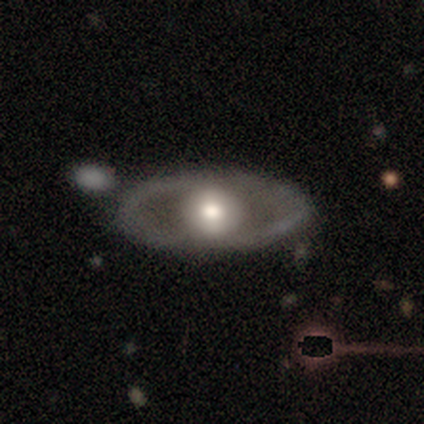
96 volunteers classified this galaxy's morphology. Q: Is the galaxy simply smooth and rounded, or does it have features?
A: featured or disk — 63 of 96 (66%).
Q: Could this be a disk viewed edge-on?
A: no — 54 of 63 (86%).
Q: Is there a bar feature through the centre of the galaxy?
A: no — 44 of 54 (81%).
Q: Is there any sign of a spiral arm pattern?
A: no — 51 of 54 (94%).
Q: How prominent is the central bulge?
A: moderate — 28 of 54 (52%).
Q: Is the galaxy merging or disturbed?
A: none — 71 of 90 (79%).